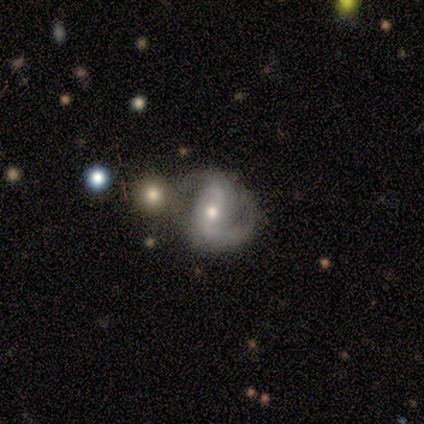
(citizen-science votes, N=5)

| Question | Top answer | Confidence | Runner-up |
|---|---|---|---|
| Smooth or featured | featured or disk | 100% | — |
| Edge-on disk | no | 100% | — |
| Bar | weak | 60% | no (40%) |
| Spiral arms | yes | 100% | — |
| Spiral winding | medium | 40% | tied: loose (40%) |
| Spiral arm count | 2 | 80% | 1 (20%) |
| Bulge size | small | 60% | moderate (40%) |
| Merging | merger | 60% | none (40%) |